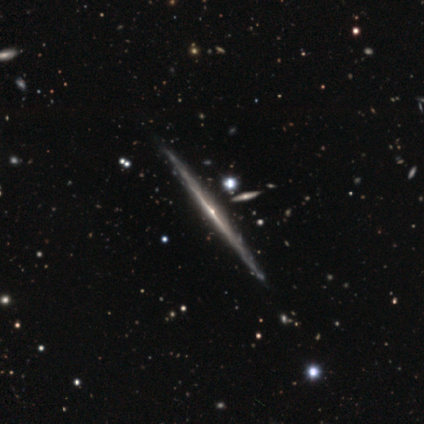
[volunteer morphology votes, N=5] Volunteers were most divided on "edge-on bulge": rounded: 75%, none: 25%, boxy: 0%. More confident: edge-on disk — yes (100%); merging — none (100%); smooth or featured — featured or disk (80%).